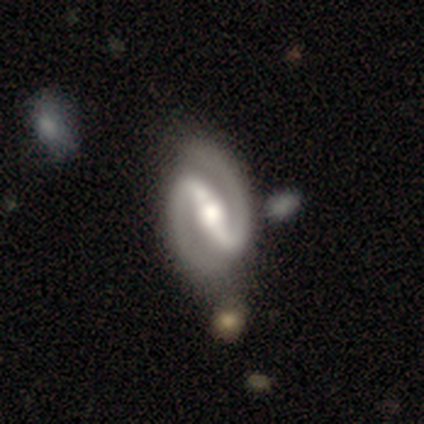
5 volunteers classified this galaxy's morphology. Smooth or featured? 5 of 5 (100%) said featured or disk. Edge-on disk? 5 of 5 (100%) said no. Bar? 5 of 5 (100%) said strong. Spiral arms? 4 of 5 (80%) said yes. Spiral winding? 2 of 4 (50%) said medium. Spiral arm count? 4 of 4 (100%) said 2. Bulge size? 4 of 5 (80%) said moderate. Merging? 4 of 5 (80%) said none.